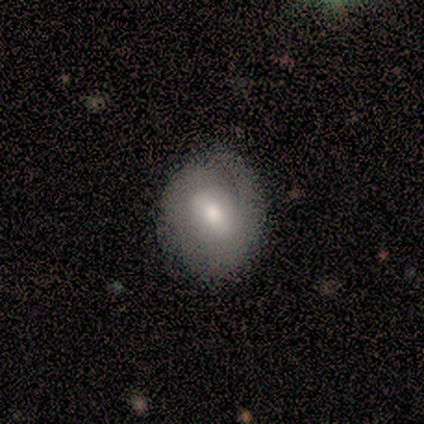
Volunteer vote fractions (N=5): Overall: smooth (80%). How rounded: round (50%, tied with in between). Merging: none (50%, tied with minor disturbance).